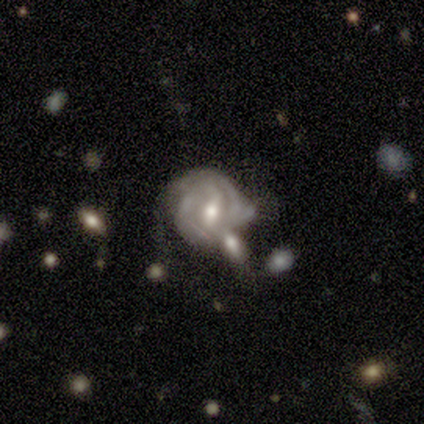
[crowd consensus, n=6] Smooth or featured: featured or disk — 83% (smooth — 17%)
Edge-on disk: no — 100%
Bar: strong — 60% (weak — 40%)
Spiral arms: yes — 60% (no — 40%)
Spiral winding: tight — 100%
Spiral arm count: 2 — 67% (can't tell — 33%)
Bulge size: moderate — 60% (small — 20%)
Merging: none — 33% (tied with major disturbance — 33%; merger — 33%)